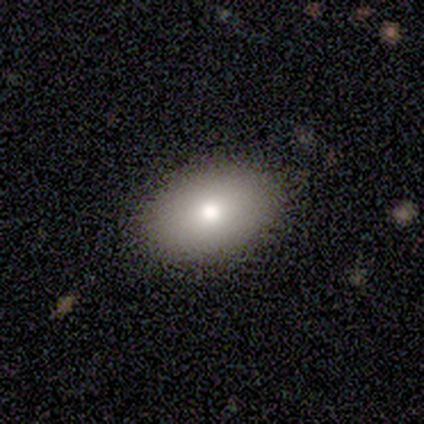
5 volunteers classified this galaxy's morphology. smooth-or-featured: smooth: 80% | featured or disk: 20% | star or artifact: 0%
  how-rounded: in between: 100% | round: 0% | cigar-shaped: 0%
  merging: none: 60% | minor disturbance: 40% | major disturbance: 0% | merger: 0%